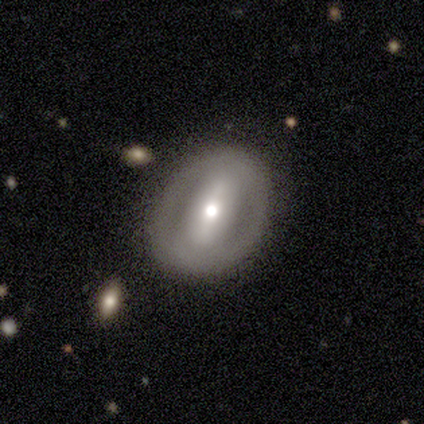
Morphology: type=smooth (50%); roundness=round (50%, tied with in between); merging=none (100%).